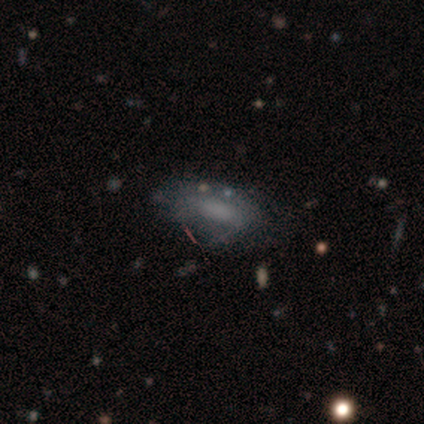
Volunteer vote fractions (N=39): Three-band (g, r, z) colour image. It shows a featured or disk galaxy (46%) with no bar (76%), no spiral arms (76%) and no central bulge (88%). Merging: none (59%).